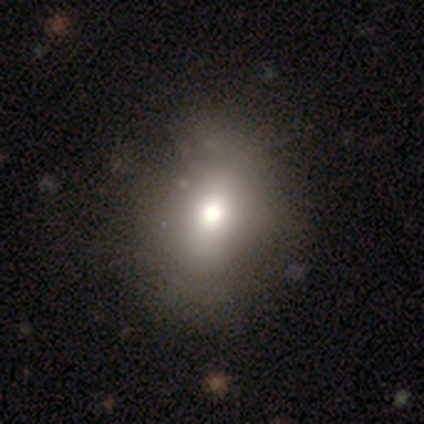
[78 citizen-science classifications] Overall: smooth (78%). How rounded: in between (56%; round 43%). Merging: none (53%).